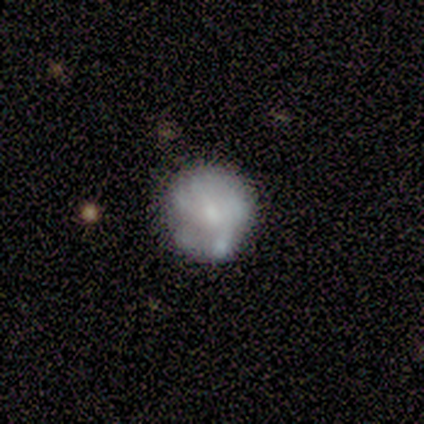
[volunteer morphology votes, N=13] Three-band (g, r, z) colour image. It shows a smooth galaxy with no disk features (46%, tied with featured or disk) that is round (83%). Merging: none (67%).